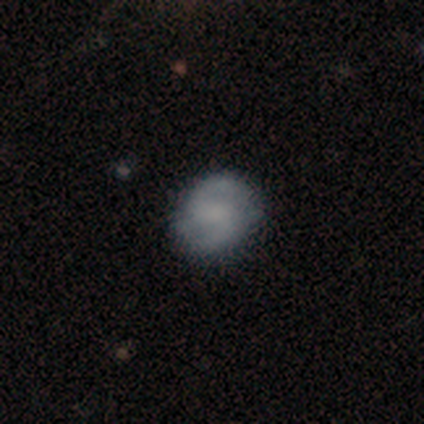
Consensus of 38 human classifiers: Volunteers were most divided on "bulge size": none: 42%, small: 35%, moderate: 23%, dominant: 0%, large: 0%. More confident: edge-on disk — no (96%); spiral arms — yes (92%); spiral arm count — 2 (92%); merging — none (86%); smooth or featured — featured or disk (71%); bar — weak (69%); spiral winding — medium (67%).